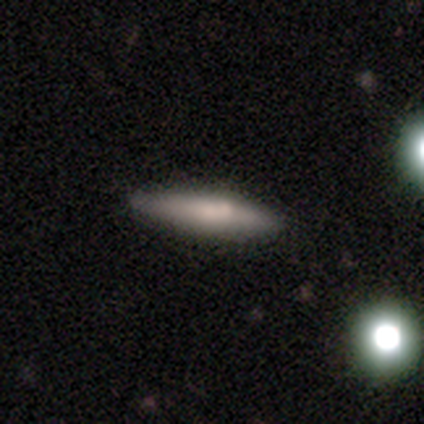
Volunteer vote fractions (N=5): Volunteers were most divided on "how rounded" (2-way tie): in between: 50%, cigar-shaped: 50%, round: 0%. More confident: smooth or featured — smooth (80%); merging — none (60%).